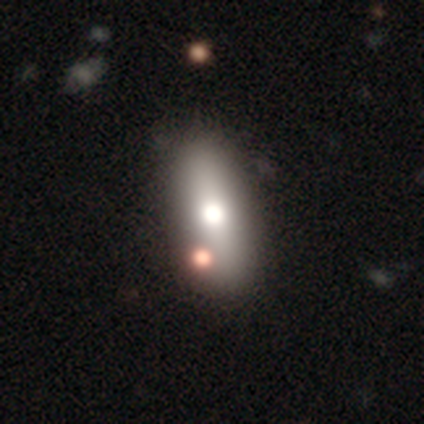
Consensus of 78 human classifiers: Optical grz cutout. It shows a smooth galaxy with no disk features (67%) that is in between round and cigar-shaped (67%). Merging: none (35%).